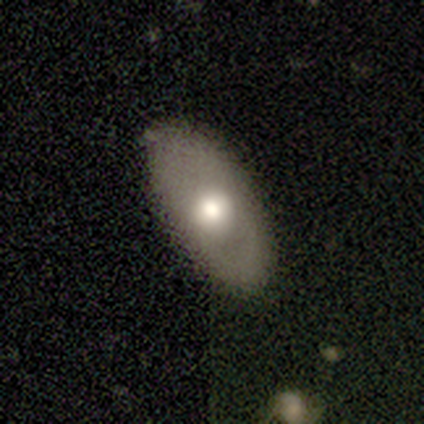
Smooth or featured? 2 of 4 (50%) said smooth. How rounded? 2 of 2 (100%) said in between. Merging? 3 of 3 (100%) said none.